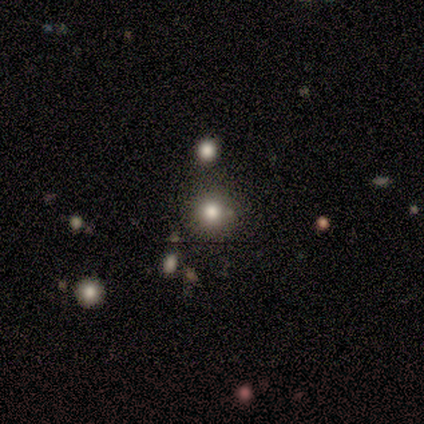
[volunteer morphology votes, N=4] A smooth galaxy with no disk features (50%, tied with star or artifact) that is round (100%). Merging: none (50%, tied with merger).